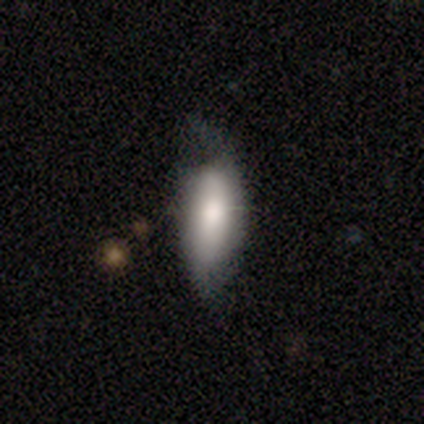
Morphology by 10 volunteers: Smooth or featured? 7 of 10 (70%) said featured or disk. Edge-on disk? 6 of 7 (86%) said no. Bar? 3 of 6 (50%) said no. Spiral arms? 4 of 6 (67%) said yes. Spiral winding? 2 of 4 (50%, tied with loose) said tight. Spiral arm count? 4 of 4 (100%) said 2. Bulge size? 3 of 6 (50%) said moderate. Merging? 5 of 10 (50%) said none.